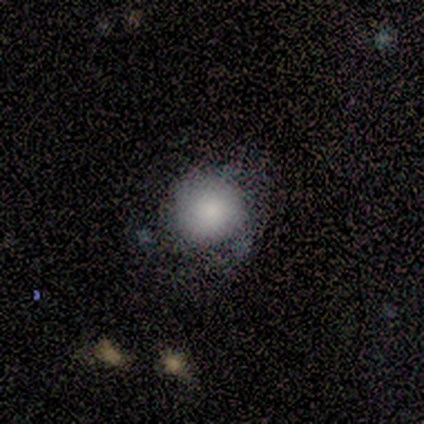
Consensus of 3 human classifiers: Smooth or featured: smooth — 100%
How rounded: round — 100%
Merging: none — 100%